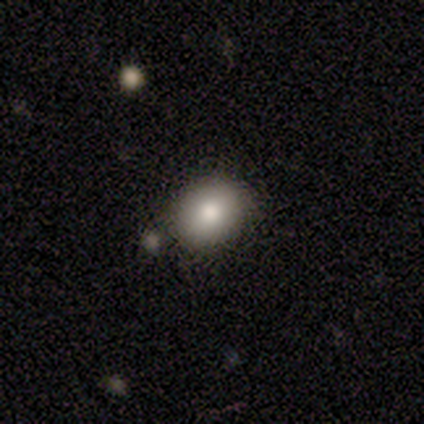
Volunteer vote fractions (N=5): This appears to be a smooth galaxy with no disk features (80%) that is round (75%). Merging: none (100%).